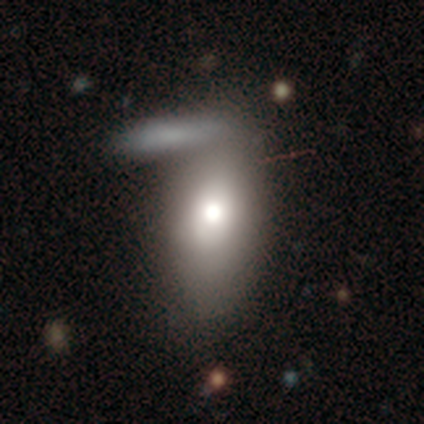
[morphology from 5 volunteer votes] Smooth or featured?
  - smooth: 80% *
  - featured or disk: 20%
  - star or artifact: 0%
How rounded?
  - in between: 100% *
  - round: 0%
  - cigar-shaped: 0%
Merging?
  - merger: 80% *
  - minor disturbance: 20%
  - none: 0%
  - major disturbance: 0%